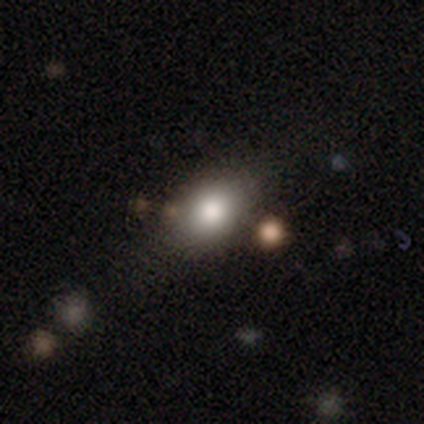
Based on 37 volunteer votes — smooth-or-featured: smooth: 81% | star or artifact: 14% | featured or disk: 5%
  how-rounded: in between: 67% | round: 33% | cigar-shaped: 0%
  merging: none: 66% | merger: 19% | minor disturbance: 9% | major disturbance: 6%